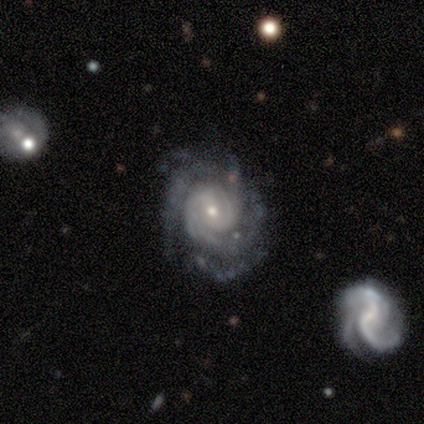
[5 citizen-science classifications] Smooth or featured?
  - featured or disk: 100% *
  - smooth: 0%
  - star or artifact: 0%
Edge-on disk?
  - no: 100% *
  - yes: 0%
Bar?
  - no: 60% *
  - weak: 40%
  - strong: 0%
Spiral arms?
  - yes: 100% *
  - no: 0%
Spiral winding?
  - tight: 80% *
  - medium: 20%
  - loose: 0%
Spiral arm count?
  - 2: 40% * (tied)
  - can't tell: 40% * (tied)
  - 3: 20%
  - 1: 0%
  - 4: 0%
  - more than 4: 0%
Bulge size?
  - small: 80% *
  - moderate: 20%
  - dominant: 0%
  - large: 0%
  - none: 0%
Merging?
  - minor disturbance: 60% *
  - none: 40%
  - major disturbance: 0%
  - merger: 0%